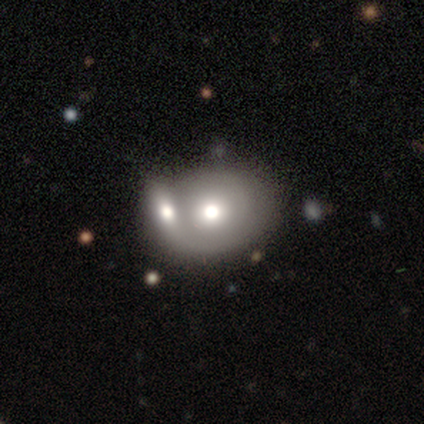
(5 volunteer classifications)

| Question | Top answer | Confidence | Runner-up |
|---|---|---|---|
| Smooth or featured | featured or disk | 60% | smooth (40%) |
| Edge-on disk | no | 100% | — |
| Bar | no | 100% | — |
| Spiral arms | no | 67% | yes (33%) |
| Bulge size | moderate | 67% | large (33%) |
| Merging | merger | 80% | none (20%) |